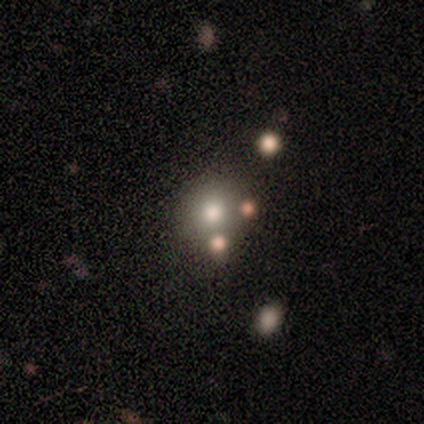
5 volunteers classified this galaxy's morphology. Q: Smooth or featured?
A: smooth (60%); runner-up: featured or disk (40%)
Q: How rounded?
A: round (100%)
Q: Merging?
A: none (100%)